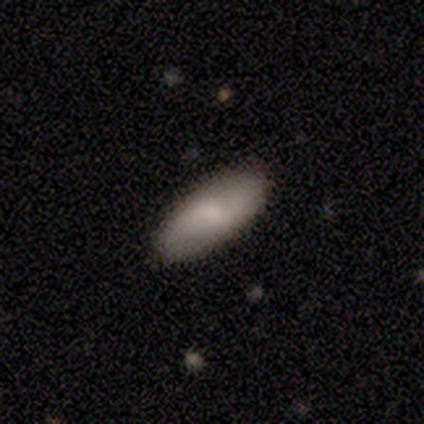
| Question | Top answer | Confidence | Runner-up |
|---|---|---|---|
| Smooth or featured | smooth | 60% | featured or disk (20%) |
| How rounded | in between | 100% | — |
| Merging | none | 100% | — |